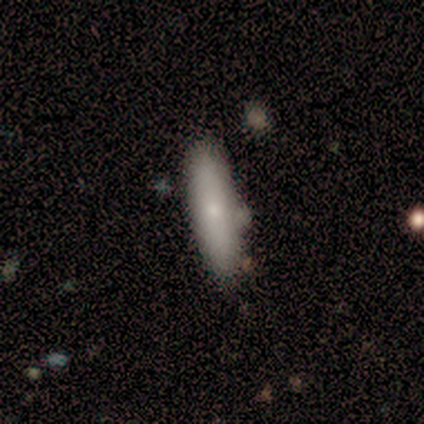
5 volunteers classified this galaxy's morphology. smooth-or-featured: smooth: 80% | featured or disk: 20% | star or artifact: 0%
  how-rounded: in between: 50% (tied) | cigar-shaped: 50% (tied) | round: 0%
  merging: none: 80% | minor disturbance: 20% | major disturbance: 0% | merger: 0%